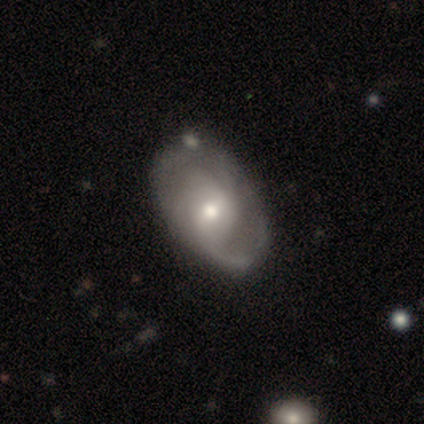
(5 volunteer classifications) A featured or disk galaxy (100%) with no bar (80%), 2 (67%) tight (33%, tied with medium and loose) spiral arms (60%) and a small central bulge (60%).

Vote fractions:
- Smooth or featured? featured or disk: 100% / smooth: 0% / star or artifact: 0%
- Edge-on disk? no: 100% / yes: 0%
- Bar? no: 80% / strong: 20% / weak: 0%
- Spiral arms? yes: 60% / no: 40%
- Spiral winding? tight: 33% (tied) / medium: 33% (tied) / loose: 33% (tied)
- Spiral arm count? 2: 67% / can't tell: 33% / 1: 0% / 3: 0% / 4: 0% / more than 4: 0%
- Bulge size? small: 60% / moderate: 40% / dominant: 0% / large: 0% / none: 0%
- Merging? none: 60% / major disturbance: 40% / minor disturbance: 0% / merger: 0%